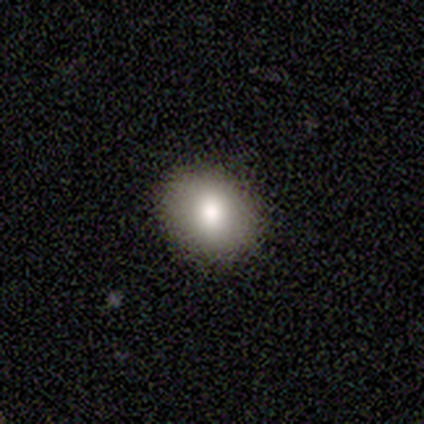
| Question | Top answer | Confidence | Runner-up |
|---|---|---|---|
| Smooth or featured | smooth | 80% | featured or disk (20%) |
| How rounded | round | 50% | tied: in between (50%) |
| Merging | none | 80% | minor disturbance (20%) |